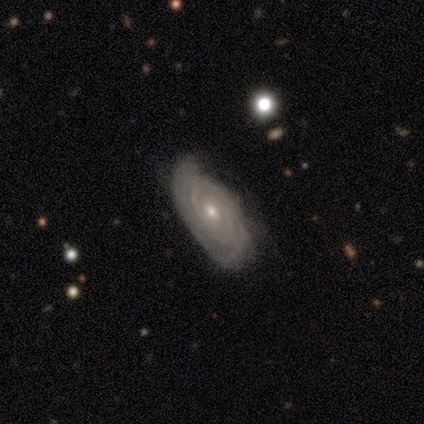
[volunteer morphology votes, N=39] Smooth or featured?
  - featured or disk: 95% *
  - smooth: 3%
  - star or artifact: 3%
Edge-on disk?
  - no: 92% *
  - yes: 8%
Bar?
  - no: 56% *
  - weak: 38%
  - strong: 6%
Spiral arms?
  - yes: 100% *
  - no: 0%
Spiral winding?
  - tight: 88% *
  - medium: 9%
  - loose: 3%
Spiral arm count?
  - can't tell: 38% *
  - 2: 24%
  - 3: 18%
  - 4: 15%
  - more than 4: 6%
  - 1: 0%
Bulge size?
  - moderate: 50% *
  - small: 47%
  - none: 3%
  - dominant: 0%
  - large: 0%
Merging?
  - none: 79% *
  - minor disturbance: 13%
  - major disturbance: 8%
  - merger: 0%